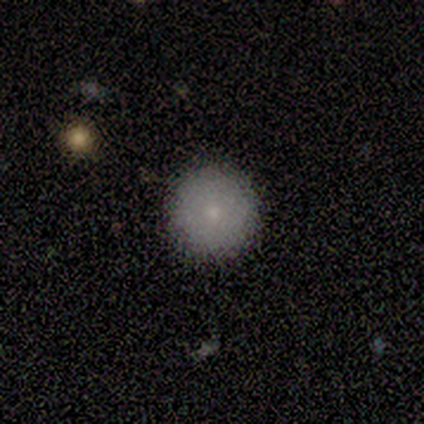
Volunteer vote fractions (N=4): Volunteers were most divided on "smooth or featured": smooth: 75%, featured or disk: 25%, star or artifact: 0%. More confident: how rounded — round (100%); merging — none (100%).